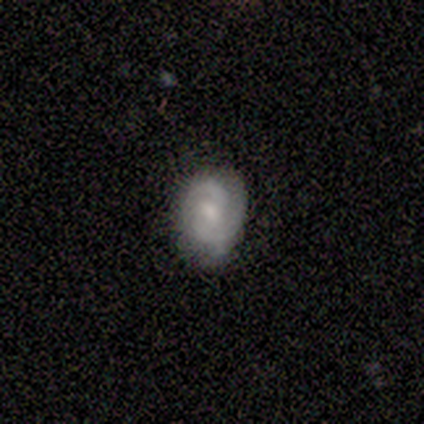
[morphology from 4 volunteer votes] Smooth or featured: featured or disk — 75% (smooth — 25%)
Edge-on disk: no — 100%
Bar: strong — 33% (tied with weak — 33%; no — 33%)
Spiral arms: yes — 100%
Spiral winding: tight — 100%
Spiral arm count: 2 — 67% (can't tell — 33%)
Bulge size: moderate — 100%
Merging: minor disturbance — 50% (none — 25%)